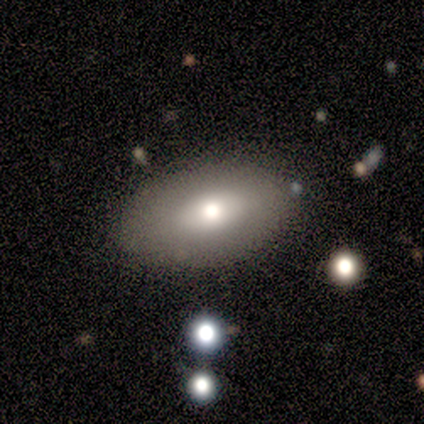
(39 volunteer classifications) Q: Smooth or featured?
A: smooth (79%); runner-up: featured or disk (15%)
Q: How rounded?
A: in between (90%); runner-up: round (10%)
Q: Merging?
A: none (92%); runner-up: minor disturbance (5%)